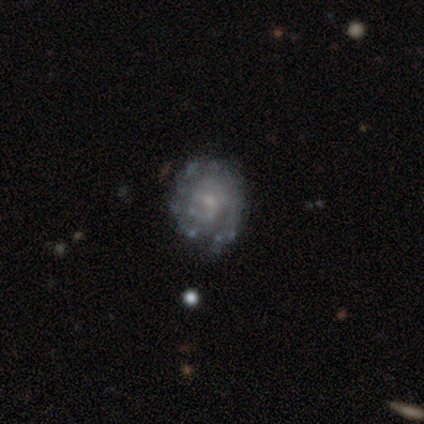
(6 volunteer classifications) Smooth or featured?
  - featured or disk: 67% *
  - smooth: 17%
  - star or artifact: 17%
Edge-on disk?
  - no: 100% *
  - yes: 0%
Bar?
  - no: 100% *
  - strong: 0%
  - weak: 0%
Spiral arms?
  - yes: 75% *
  - no: 25%
Spiral winding?
  - tight: 100% *
  - medium: 0%
  - loose: 0%
Spiral arm count?
  - can't tell: 100% *
  - 1: 0%
  - 2: 0%
  - 3: 0%
  - 4: 0%
  - more than 4: 0%
Bulge size?
  - small: 50% *
  - moderate: 25%
  - none: 25%
  - dominant: 0%
  - large: 0%
Merging?
  - none: 80% *
  - major disturbance: 20%
  - minor disturbance: 0%
  - merger: 0%